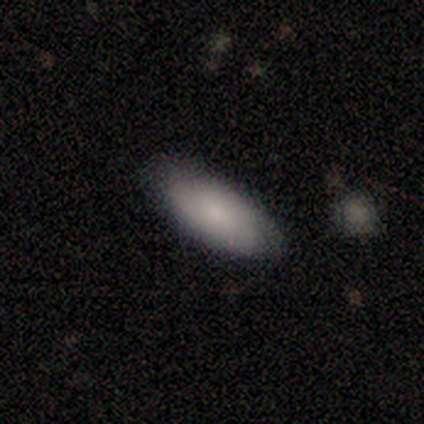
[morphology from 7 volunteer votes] smooth-or-featured: smooth: 71% | featured or disk: 14% | star or artifact: 14%
  how-rounded: in between: 80% | cigar-shaped: 20% | round: 0%
  merging: none: 83% | major disturbance: 17% | minor disturbance: 0% | merger: 0%